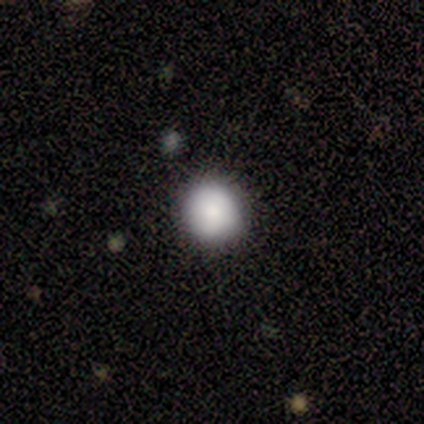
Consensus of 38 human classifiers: Morphology: type=smooth (84%); roundness=round (94%); merging=none (91%).